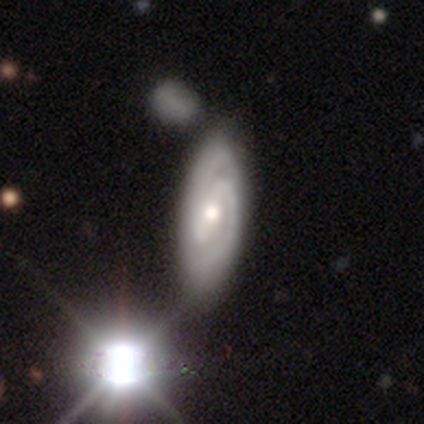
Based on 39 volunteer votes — Q: Smooth or featured?
A: featured or disk (90%); runner-up: smooth (10%)
Q: Edge-on disk?
A: no (97%); runner-up: yes (3%)
Q: Bar?
A: strong (41%); runner-up: no (35%)
Q: Spiral arms?
A: yes (97%); runner-up: no (3%)
Q: Spiral winding?
A: tight (55%); runner-up: medium (42%)
Q: Spiral arm count?
A: 2 (79%); runner-up: can't tell (18%)
Q: Bulge size?
A: moderate (79%); runner-up: small (21%)
Q: Merging?
A: none (56%); runner-up: minor disturbance (8%)